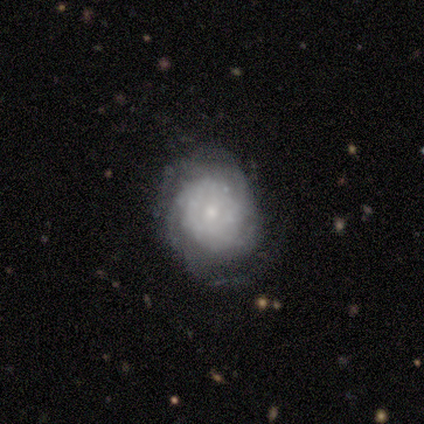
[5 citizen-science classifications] Q: Smooth or featured?
A: featured or disk (100%)
Q: Edge-on disk?
A: no (100%)
Q: Bar?
A: no (100%)
Q: Spiral arms?
A: yes (80%); runner-up: no (20%)
Q: Spiral winding?
A: tight (75%); runner-up: medium (25%)
Q: Spiral arm count?
A: can't tell (50%); runner-up: 1 (25%)
Q: Bulge size?
A: small (100%)
Q: Merging?
A: none (80%); runner-up: minor disturbance (20%)